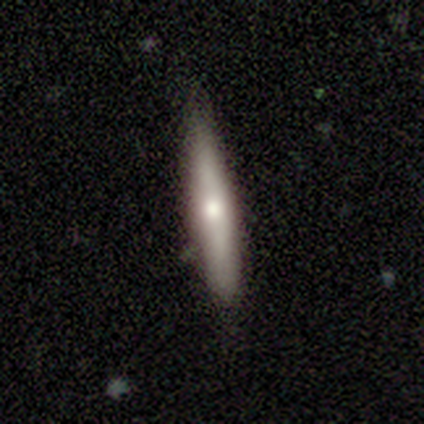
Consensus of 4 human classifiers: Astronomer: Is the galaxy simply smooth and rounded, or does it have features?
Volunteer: smooth — 75%.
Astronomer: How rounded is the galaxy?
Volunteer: cigar-shaped — 100%.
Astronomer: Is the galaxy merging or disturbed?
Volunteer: none — 100%.